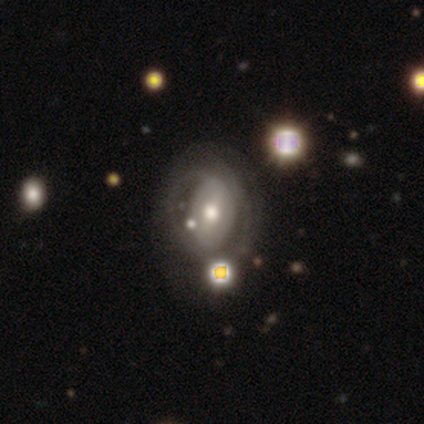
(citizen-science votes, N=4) featured or disk 100%, smooth 0%, star or artifact 0%. Down the decision tree: edge-on disk — no (100%); bar — weak (50%, tied with no); spiral arms — yes (75%); spiral arm count — 2 (33%, tied with 3 and can't tell); spiral winding — tight (67%); bulge size — small (50%); merging — major disturbance (50%).